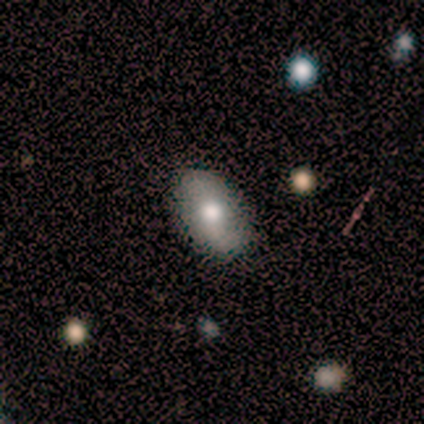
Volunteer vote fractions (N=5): Volunteers were most divided on "merging": none: 60%, minor disturbance: 20%, major disturbance: 20%, merger: 0%. More confident: smooth or featured — smooth (80%); how rounded — in between (75%).